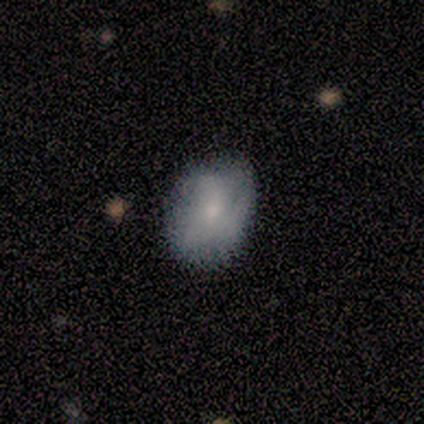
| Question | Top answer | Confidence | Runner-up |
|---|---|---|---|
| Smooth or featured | smooth | 100% | — |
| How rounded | in between | 80% | round (20%) |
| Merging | none | 40% | tied: major disturbance (40%) |